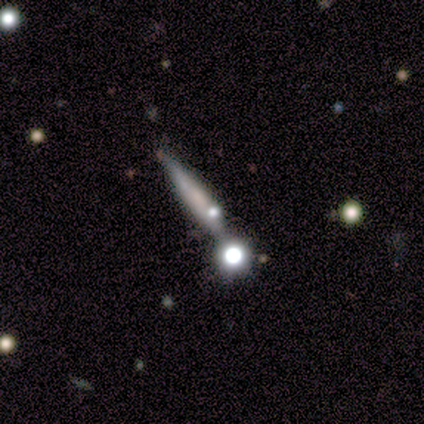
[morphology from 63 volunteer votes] Smooth or featured? smooth (52%)
How rounded? cigar-shaped (82%)
Merging? none (58%)